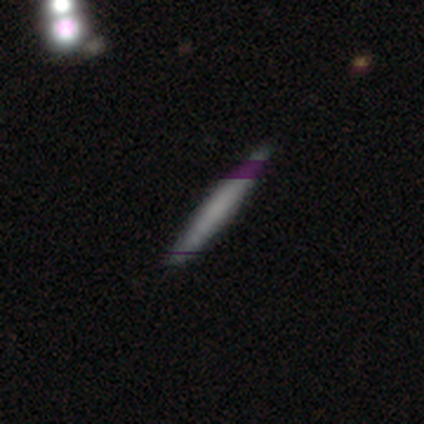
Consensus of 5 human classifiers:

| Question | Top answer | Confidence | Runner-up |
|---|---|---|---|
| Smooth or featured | featured or disk | 60% | smooth (40%) |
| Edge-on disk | yes | 100% | — |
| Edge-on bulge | none | 67% | rounded (33%) |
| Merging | none | 100% | — |